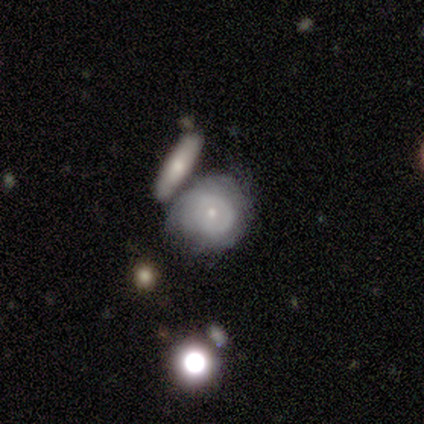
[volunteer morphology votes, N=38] smooth_or_featured: featured or disk (p=0.58) [alt: smooth p=0.29]
disk_edge_on: no (p=1.00)
bar: no (p=0.86) [alt: weak p=0.09]
has_spiral_arms: yes (p=0.55) [alt: no p=0.45]
spiral_winding: tight (p=0.58) [alt: medium p=0.33]
spiral_arm_count: can't tell (p=0.67) [alt: 1 p=0.25]
bulge_size: small (p=0.82) [alt: moderate p=0.18]
merging: minor disturbance (p=0.42) [alt: none p=0.30]